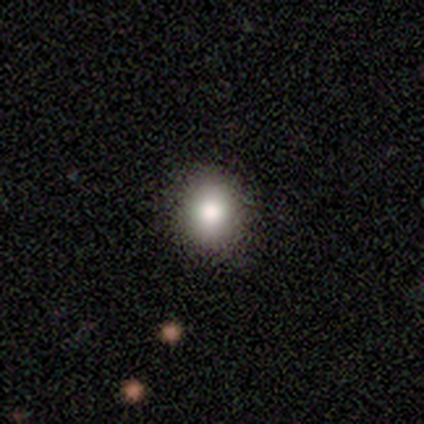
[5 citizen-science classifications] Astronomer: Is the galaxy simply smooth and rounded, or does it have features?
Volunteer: smooth — 100%.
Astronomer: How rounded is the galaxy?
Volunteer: round — 60% (runner-up: in between, 40%).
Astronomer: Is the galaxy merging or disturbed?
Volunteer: none — 60% (runner-up: minor disturbance, 40%).